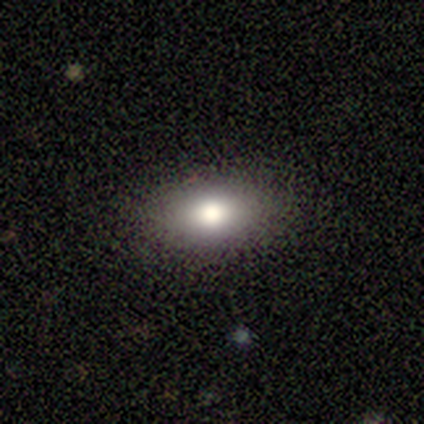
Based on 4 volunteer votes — Smooth or featured? smooth (50%)
How rounded? in between (100%)
Merging? none (100%)